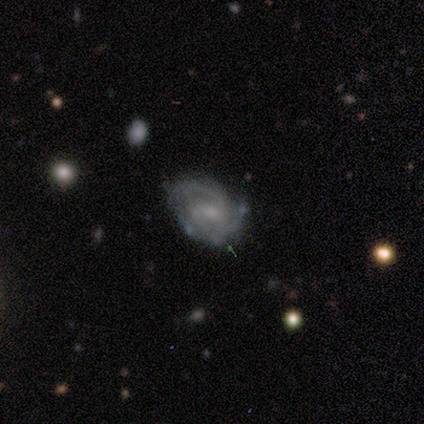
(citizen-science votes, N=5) This is clearly a featured or disk galaxy (80%). It is clearly not viewed edge-on (100%). Bar: clearly weak (100%). Spiral arm pattern: clearly yes (100%). Spiral arm count: possibly 3 (50%). Spiral winding: likely tight (75%). Central bulge: likely small (75%). Merging: likely none (60%).